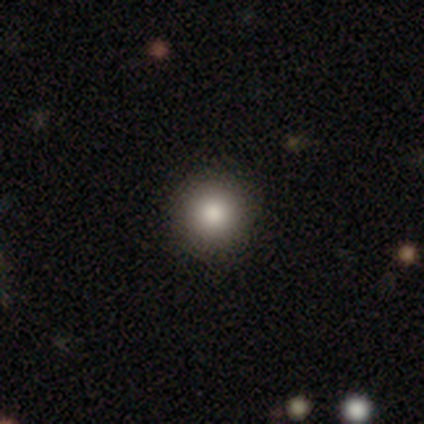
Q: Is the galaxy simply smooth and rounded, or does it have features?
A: smooth — 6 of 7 (86%).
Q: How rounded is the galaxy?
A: round — 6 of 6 (100%).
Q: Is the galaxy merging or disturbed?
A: none — 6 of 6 (100%).